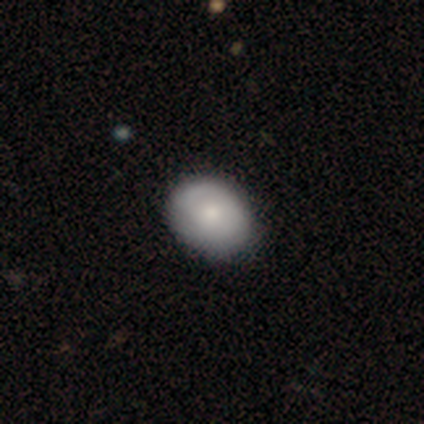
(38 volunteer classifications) Overall: smooth (79%). How rounded: in between (53%; round 47%). Merging: none (58%).